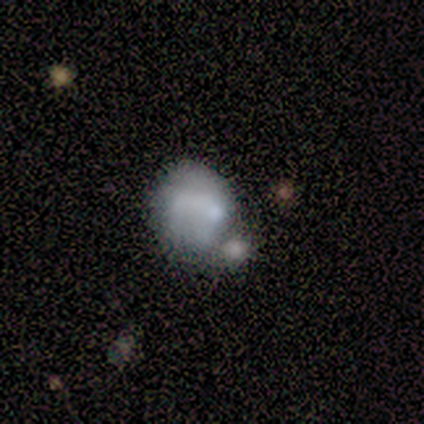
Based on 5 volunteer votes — Smooth or featured?
  - smooth: 60% *
  - featured or disk: 20%
  - star or artifact: 20%
How rounded?
  - in between: 67% *
  - round: 33%
  - cigar-shaped: 0%
Merging?
  - minor disturbance: 50% *
  - none: 25%
  - merger: 25%
  - major disturbance: 0%